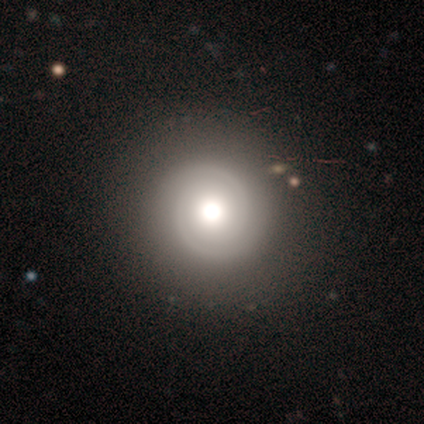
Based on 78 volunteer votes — Smooth or featured: featured or disk — 67% (smooth — 26%)
Edge-on disk: no — 96% (yes — 4%)
Bar: no — 76% (weak — 20%)
Spiral arms: yes — 94% (no — 6%)
Spiral winding: tight — 64% (medium — 23%)
Spiral arm count: 2 — 91% (can't tell — 6%)
Bulge size: moderate — 48% (large — 36%)
Merging: none — 43% (minor disturbance — 4%)